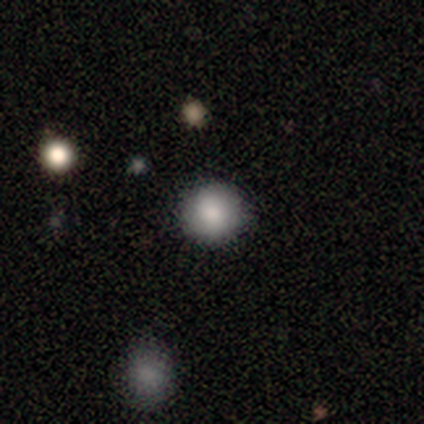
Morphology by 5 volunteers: smooth_or_featured: smooth (p=0.60) [alt: featured or disk p=0.20]
how_rounded: round (p=1.00)
merging: none (p=0.75) [alt: major disturbance p=0.25]